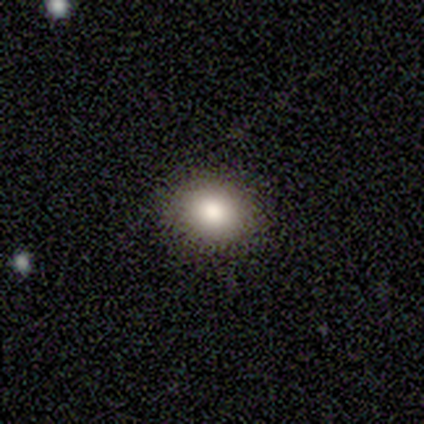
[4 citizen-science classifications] Smooth or featured?
  - smooth: 100% *
  - featured or disk: 0%
  - star or artifact: 0%
How rounded?
  - round: 50% * (tied)
  - in between: 50% * (tied)
  - cigar-shaped: 0%
Merging?
  - none: 100% *
  - minor disturbance: 0%
  - major disturbance: 0%
  - merger: 0%